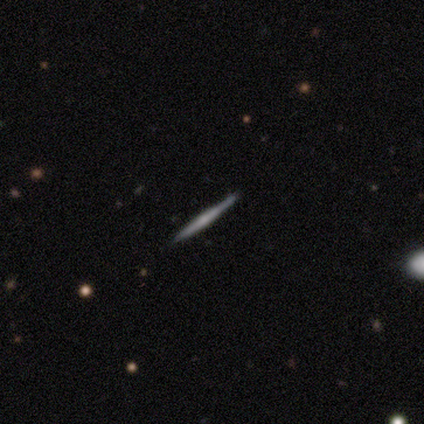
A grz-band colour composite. It shows a smooth galaxy with no disk features (60%) that is cigar-shaped (100%). Merging: none (100%).